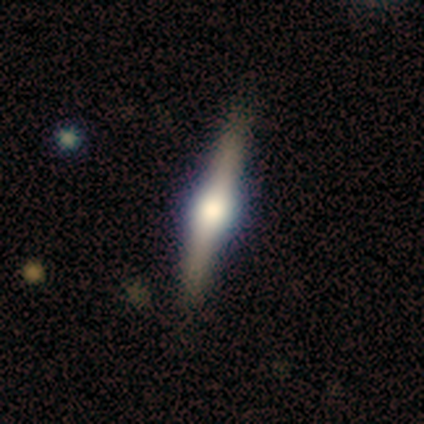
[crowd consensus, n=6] Q: Smooth or featured?
A: featured or disk (83%); runner-up: smooth (17%)
Q: Edge-on disk?
A: yes (100%)
Q: Edge-on bulge?
A: rounded (100%)
Q: Merging?
A: none (83%); runner-up: minor disturbance (17%)